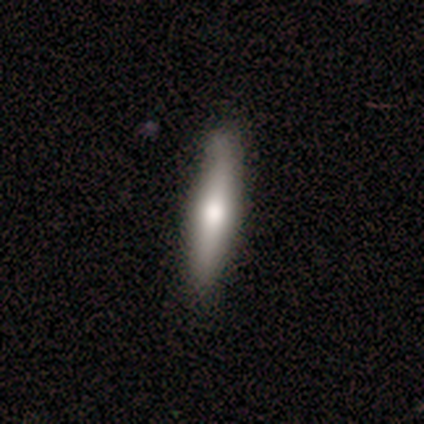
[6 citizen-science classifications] Overall: smooth (50%, tied with featured or disk). How rounded: cigar-shaped (100%). Merging: none (100%).